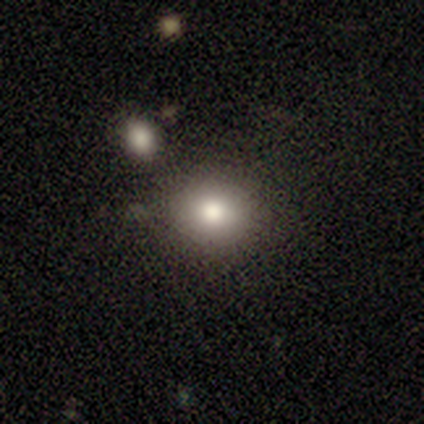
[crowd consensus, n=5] smooth-or-featured: smooth: 80% | star or artifact: 20% | featured or disk: 0%
  how-rounded: round: 100% | in between: 0% | cigar-shaped: 0%
  merging: none: 100% | minor disturbance: 0% | major disturbance: 0% | merger: 0%